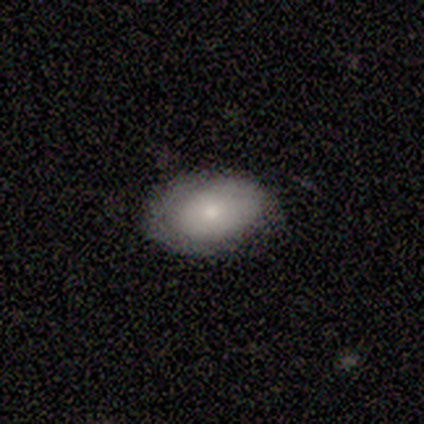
Smooth or featured: smooth — 63% (featured or disk — 34%)
How rounded: in between — 92% (round — 8%)
Merging: none — 72% (minor disturbance — 28%)